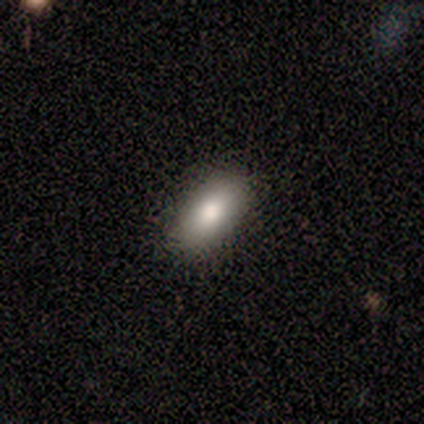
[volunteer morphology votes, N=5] This is clearly a smooth galaxy (80%). How rounded: likely in between (75%). Merging: clearly none (100%).